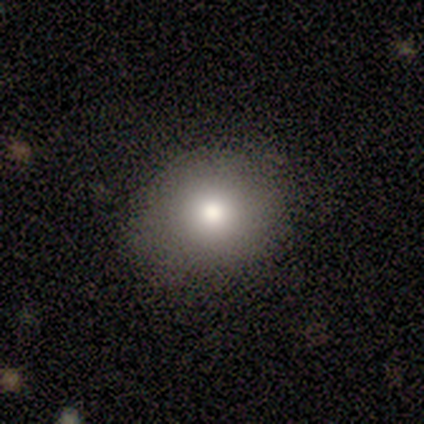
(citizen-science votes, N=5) Smooth or featured?
  - smooth: 80% *
  - featured or disk: 20%
  - star or artifact: 0%
How rounded?
  - round: 100% *
  - in between: 0%
  - cigar-shaped: 0%
Merging?
  - none: 80% *
  - minor disturbance: 20%
  - major disturbance: 0%
  - merger: 0%